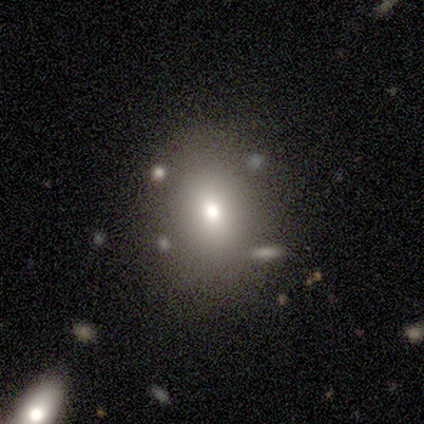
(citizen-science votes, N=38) Overall: smooth (61%; star or artifact 21%). How rounded: in between (70%; round 30%). Merging: none (77%).